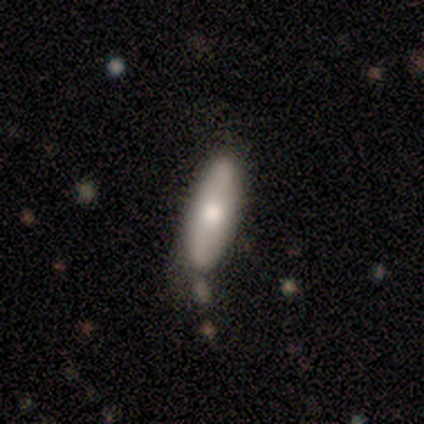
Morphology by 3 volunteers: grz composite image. It shows a featured or disk galaxy (67%) viewed edge-on (50%, tied with no) with a rounded central bulge (100%). Merging: none (67%).